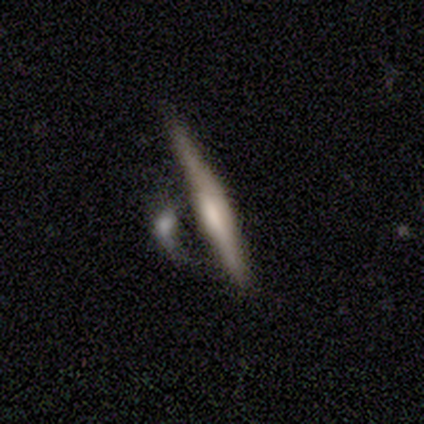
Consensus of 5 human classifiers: Morphology: type=featured or disk (60%); edge-on=yes (100%); edge-on bulge=none (67%); merging=none (25%, tied with minor disturbance, major disturbance and merger).